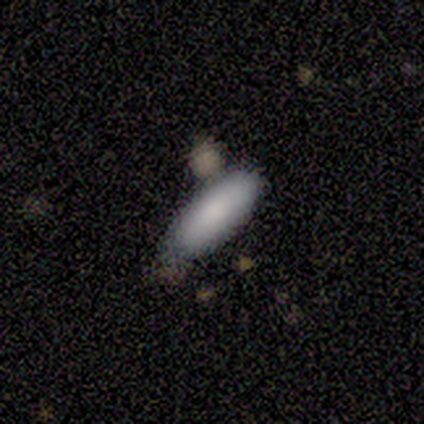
Q: Smooth or featured?
A: smooth (100%)
Q: How rounded?
A: cigar-shaped (60%); runner-up: in between (40%)
Q: Merging?
A: minor disturbance (60%); runner-up: none (40%)